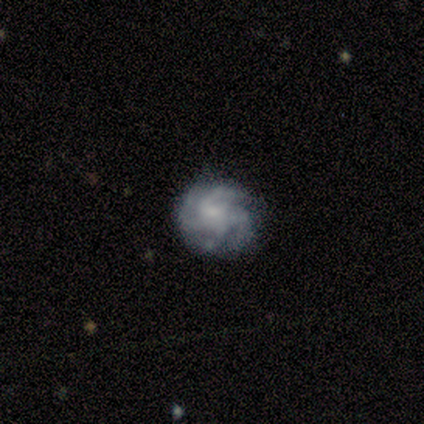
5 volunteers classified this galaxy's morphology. type=featured or disk (80%); edge-on=no (100%); bar=no (75%); spiral arms=yes (75%); winding=medium (67%); arm count=4 (100%); bulge=none (75%); merging=none (80%).